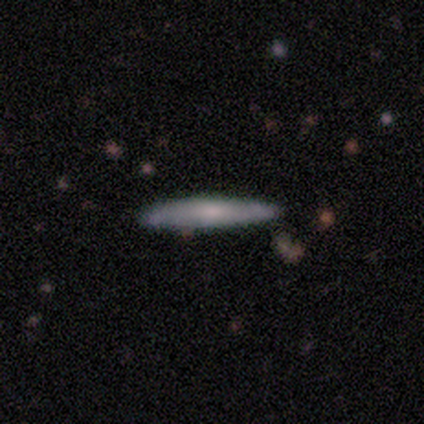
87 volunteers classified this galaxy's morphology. This is possibly a smooth galaxy (51%). How rounded: clearly cigar-shaped (93%). Merging: clearly none (92%).